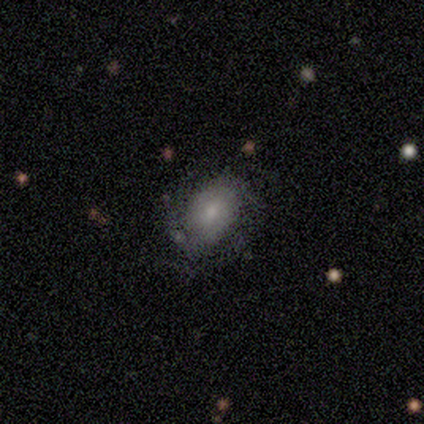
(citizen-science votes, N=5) Volunteers were most divided on "spiral arm count" (2-way tie): 2: 50%, can't tell: 50%, 1: 0%, 3: 0%, 4: 0%, more than 4: 0%. More confident: edge-on disk — no (100%); spiral winding — tight (100%); merging — none (80%); bar — no (67%); spiral arms — yes (67%); bulge size — moderate (67%); smooth or featured — featured or disk (60%).